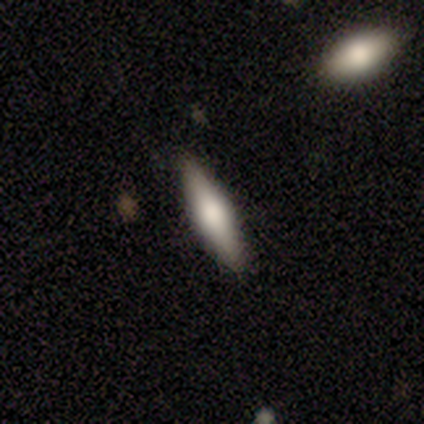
A smooth galaxy with no disk features (100%) that is cigar-shaped (100%). Merging: none (100%).